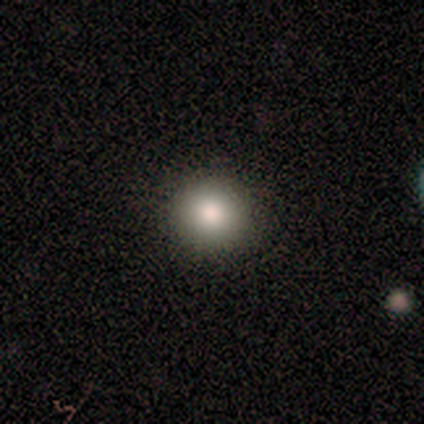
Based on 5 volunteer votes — Smooth or featured?
  - smooth: 60% *
  - featured or disk: 20%
  - star or artifact: 20%
How rounded?
  - round: 100% *
  - in between: 0%
  - cigar-shaped: 0%
Merging?
  - none: 100% *
  - minor disturbance: 0%
  - major disturbance: 0%
  - merger: 0%